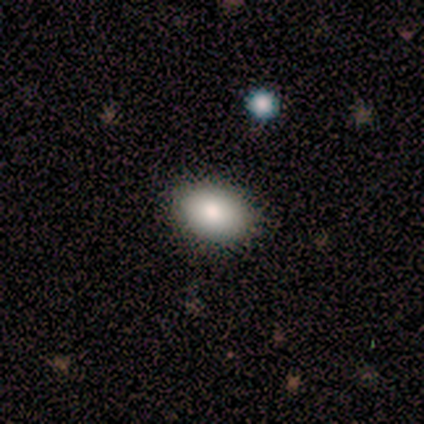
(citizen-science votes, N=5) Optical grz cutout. It shows a smooth galaxy with no disk features (80%) that is in between round and cigar-shaped (75%). Merging: none (100%).